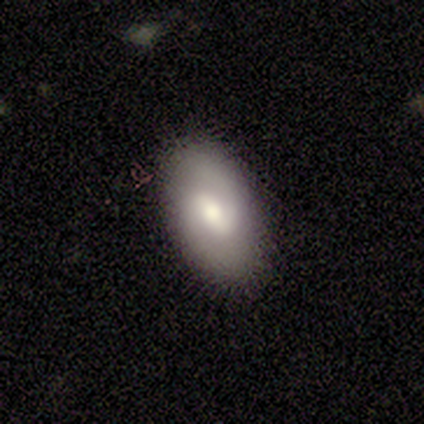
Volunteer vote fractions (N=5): smooth_or_featured: featured or disk (p=0.60) [alt: smooth p=0.20]
disk_edge_on: no (p=1.00)
bar: weak (p=1.00)
has_spiral_arms: yes (p=0.67) [alt: no p=0.33]
spiral_winding: medium (p=0.50) [tied with: loose p=0.50]
spiral_arm_count: 2 (p=1.00)
bulge_size: moderate (p=1.00)
merging: none (p=1.00)